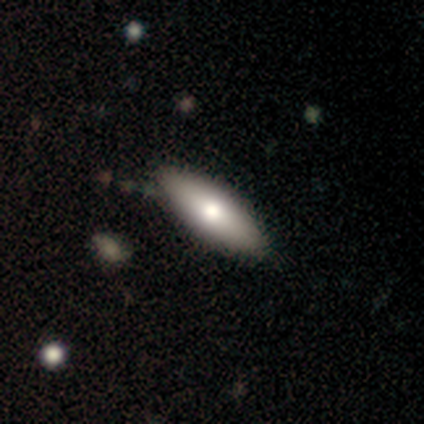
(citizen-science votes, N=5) A featured or disk galaxy (60%) with a weak bar (50%, tied with no), 2 (100%) tight (100%) spiral arms (50%, tied with no) and a moderate central bulge (100%). Merging: none (100%).